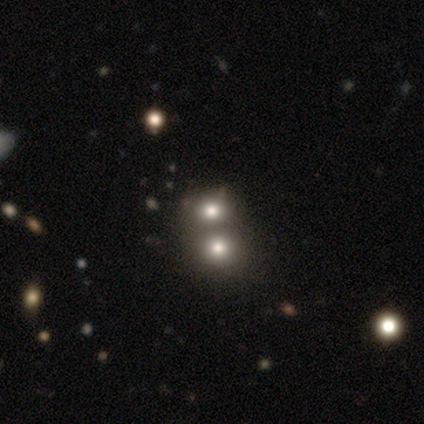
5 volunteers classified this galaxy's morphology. Smooth or featured? 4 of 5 (80%) said smooth. How rounded? 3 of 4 (75%) said round. Merging? 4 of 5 (80%) said none.